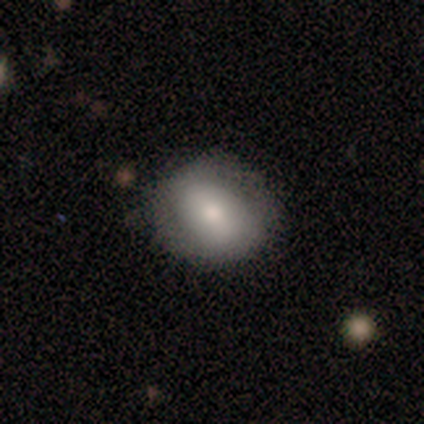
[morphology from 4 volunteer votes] smooth-or-featured: smooth: 75% | featured or disk: 25% | star or artifact: 0%
  how-rounded: in between: 67% | round: 33% | cigar-shaped: 0%
  merging: none: 100% | minor disturbance: 0% | major disturbance: 0% | merger: 0%